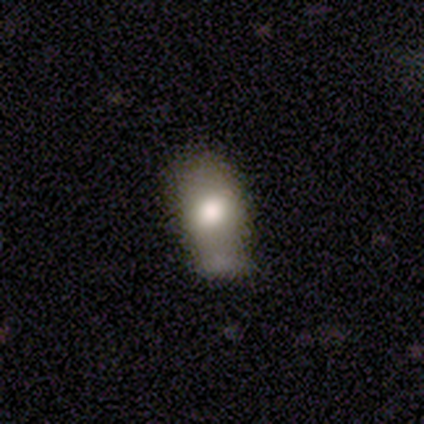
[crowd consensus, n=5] Smooth or featured?
  - smooth: 80% *
  - star or artifact: 20%
  - featured or disk: 0%
How rounded?
  - in between: 100% *
  - round: 0%
  - cigar-shaped: 0%
Merging?
  - minor disturbance: 75% *
  - none: 25%
  - major disturbance: 0%
  - merger: 0%